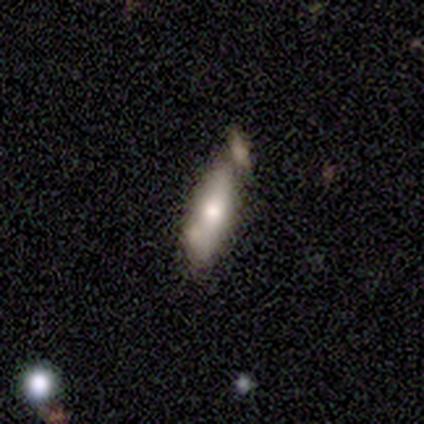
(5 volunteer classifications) Smooth or featured? 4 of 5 (80%) said smooth. How rounded? 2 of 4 (50%, tied with cigar-shaped) said in between. Merging? 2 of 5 (40%, tied with minor disturbance) said none.